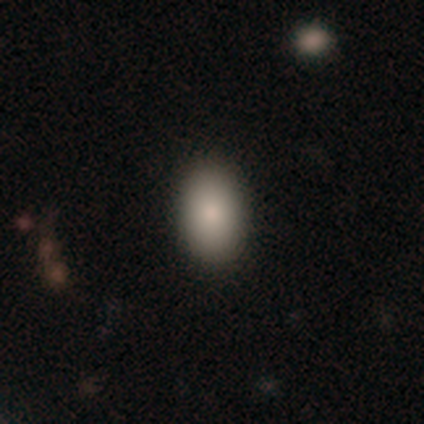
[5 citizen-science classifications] A smooth galaxy with no disk features (100%) that is in between round and cigar-shaped (100%). Merging: none (80%).